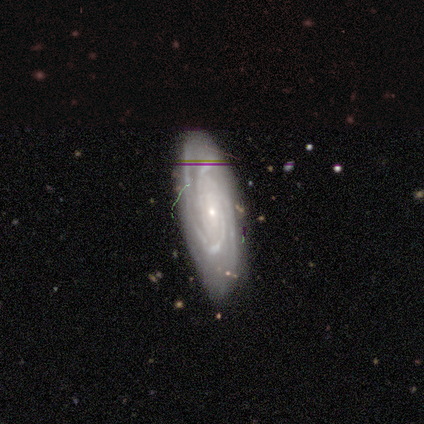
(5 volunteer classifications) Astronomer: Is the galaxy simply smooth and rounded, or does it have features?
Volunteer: featured or disk — 80%.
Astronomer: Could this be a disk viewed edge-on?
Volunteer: no — 100%.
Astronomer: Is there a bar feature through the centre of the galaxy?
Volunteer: no — 100%.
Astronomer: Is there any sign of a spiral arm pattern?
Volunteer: yes — 100%.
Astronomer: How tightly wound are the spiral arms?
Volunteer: tight — 100%.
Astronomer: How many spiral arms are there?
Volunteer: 2 — 50%, tied with 3 at 50%.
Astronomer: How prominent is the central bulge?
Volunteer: small — 75%.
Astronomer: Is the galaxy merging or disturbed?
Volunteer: none — 100%.